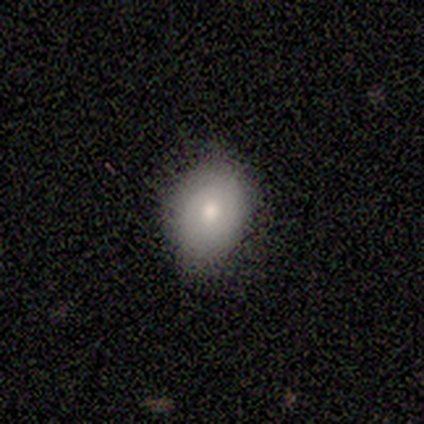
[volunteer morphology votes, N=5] Volunteers were most divided on "smooth or featured": smooth: 60%, featured or disk: 40%, star or artifact: 0%. More confident: how rounded — in between (100%); merging — none (100%).